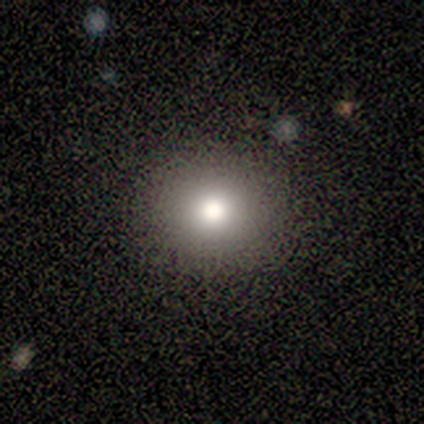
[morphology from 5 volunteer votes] type=smooth (100%); roundness=round (100%); merging=none (80%).